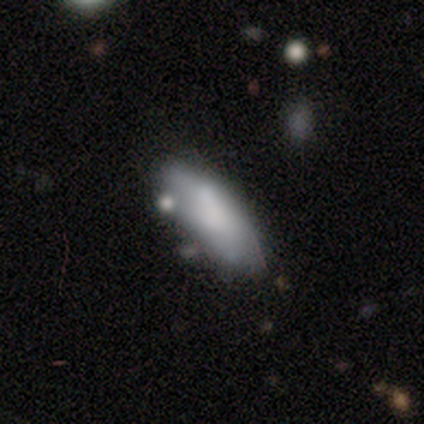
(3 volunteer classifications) This is likely a smooth galaxy (67%). How rounded: clearly in between (100%). Merging: marginally none (33%, tied with minor disturbance and merger).